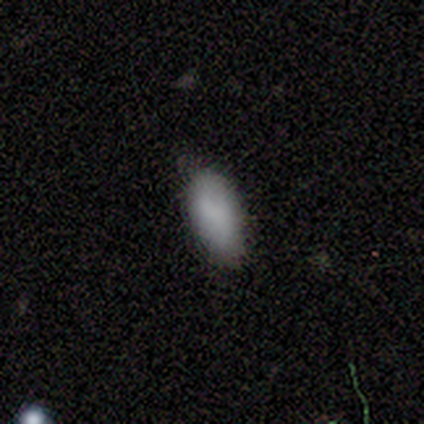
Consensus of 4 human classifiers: Smooth or featured? 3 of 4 (75%) said smooth. How rounded? 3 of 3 (100%) said in between. Merging? 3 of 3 (100%) said none.